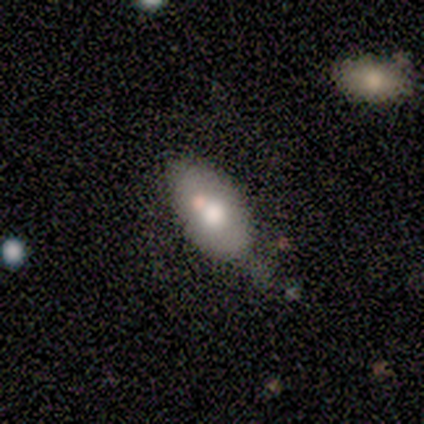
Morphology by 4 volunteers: Overall: smooth (75%). How rounded: in between (100%). Merging: none (75%).